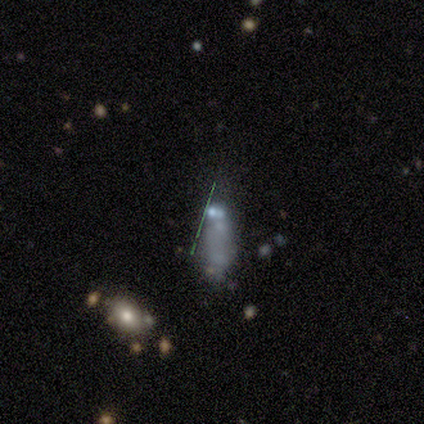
smooth_or_featured: star or artifact (p=0.60) [alt: smooth p=0.40]